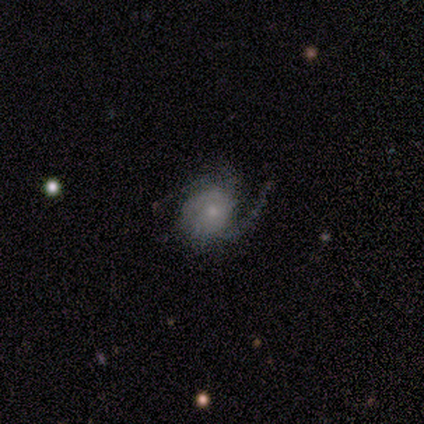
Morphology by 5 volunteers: Q: Smooth or featured?
A: featured or disk (80%); runner-up: smooth (20%)
Q: Edge-on disk?
A: no (75%); runner-up: yes (25%)
Q: Bar?
A: no (67%); runner-up: weak (33%)
Q: Spiral arms?
A: yes (100%)
Q: Spiral winding?
A: medium (100%)
Q: Spiral arm count?
A: 2 (100%)
Q: Bulge size?
A: small (67%); runner-up: none (33%)
Q: Merging?
A: none (100%)